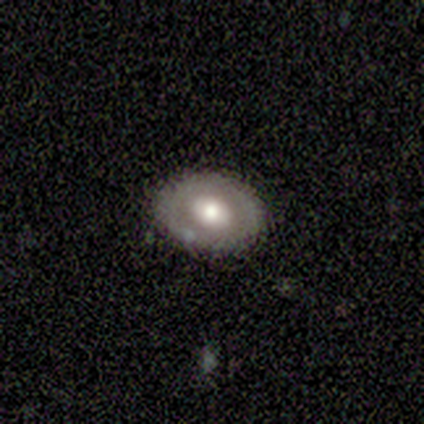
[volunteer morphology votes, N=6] Smooth or featured? featured or disk (67%)
Edge-on disk? yes (50%, tied with no)
Edge-on bulge? rounded (100%)
Merging? none (60%)